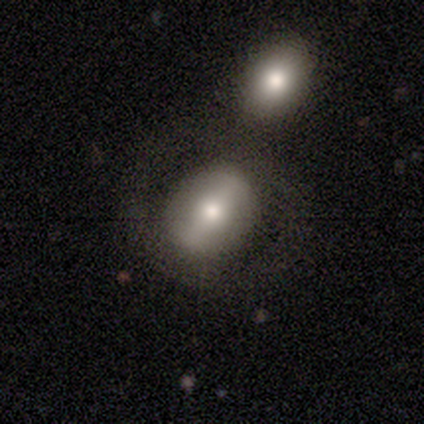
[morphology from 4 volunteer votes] This is possibly a smooth galaxy (50%, tied with featured or disk). How rounded: possibly round (50%, tied with in between). Merging: possibly minor disturbance (50%).